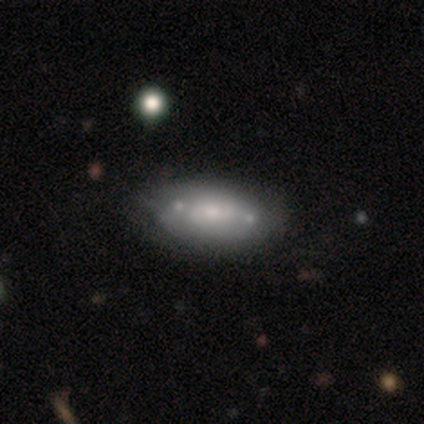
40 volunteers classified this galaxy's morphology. Smooth or featured? 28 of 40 (70%) said featured or disk. Edge-on disk? 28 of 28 (100%) said no. Bar? 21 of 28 (75%) said no. Spiral arms? 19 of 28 (68%) said no. Bulge size? 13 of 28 (46%, tied with small) said moderate. Merging? 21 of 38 (55%) said none.